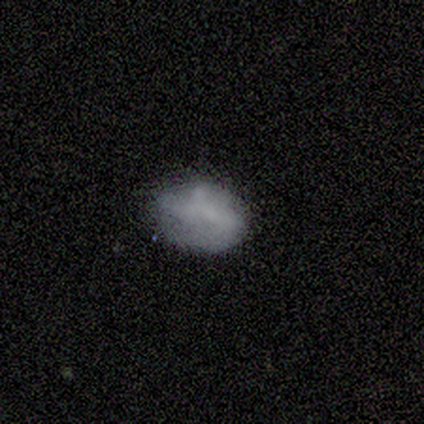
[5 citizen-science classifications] Smooth or featured?
  - smooth: 80% *
  - star or artifact: 20%
  - featured or disk: 0%
How rounded?
  - in between: 75% *
  - round: 25%
  - cigar-shaped: 0%
Merging?
  - none: 100% *
  - minor disturbance: 0%
  - major disturbance: 0%
  - merger: 0%